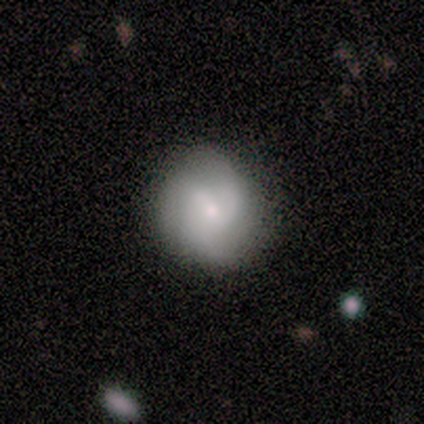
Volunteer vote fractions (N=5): Smooth or featured? 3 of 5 (60%) said featured or disk. Edge-on disk? 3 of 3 (100%) said no. Bar? 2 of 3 (67%) said no. Spiral arms? 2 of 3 (67%) said yes. Spiral winding? 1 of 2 (50%, tied with medium) said tight. Spiral arm count? 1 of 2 (50%, tied with can't tell) said 3. Bulge size? 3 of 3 (100%) said small. Merging? 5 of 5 (100%) said none.